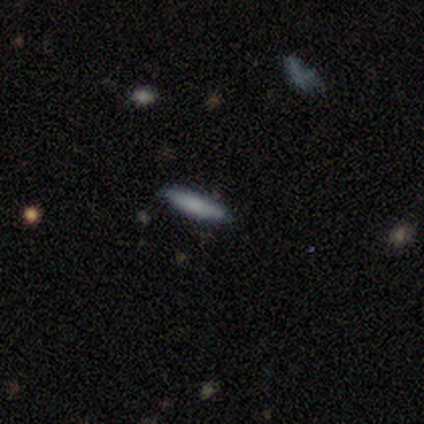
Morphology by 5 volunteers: Smooth or featured? smooth (60%)
How rounded? cigar-shaped (100%)
Merging? none (100%)